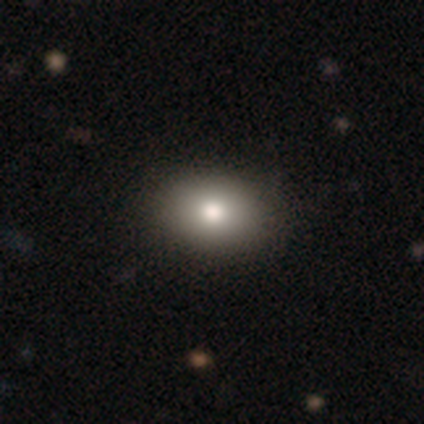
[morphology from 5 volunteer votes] This appears to be a smooth galaxy with no disk features (60%) that is in between round and cigar-shaped (100%). Merging: none (80%).